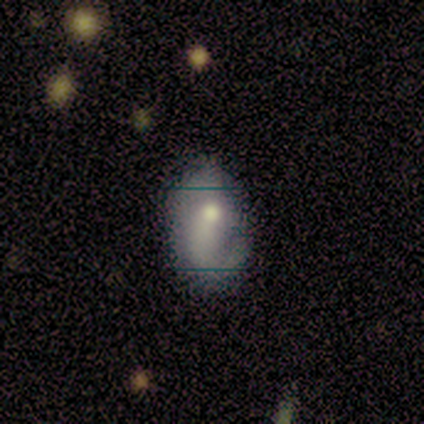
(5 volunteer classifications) Smooth or featured: smooth — 80% (featured or disk — 20%)
How rounded: in between — 100%
Merging: minor disturbance — 80% (major disturbance — 20%)